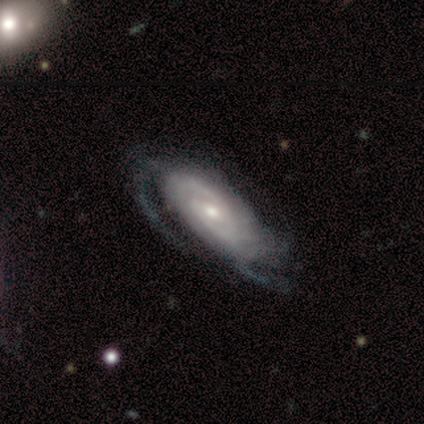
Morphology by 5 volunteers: Smooth or featured? 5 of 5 (100%) said featured or disk. Edge-on disk? 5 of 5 (100%) said no. Bar? 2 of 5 (40%, tied with no) said weak. Spiral arms? 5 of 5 (100%) said yes. Spiral winding? 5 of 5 (100%) said tight. Spiral arm count? 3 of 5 (60%) said can't tell. Bulge size? 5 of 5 (100%) said moderate. Merging? 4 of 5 (80%) said none.